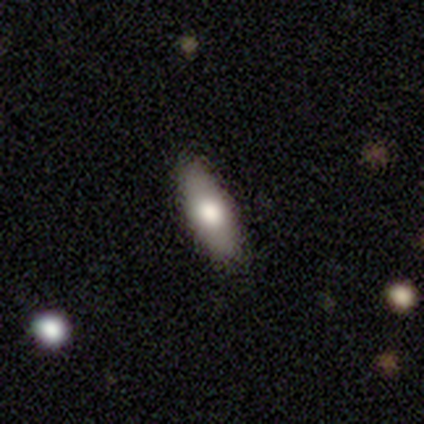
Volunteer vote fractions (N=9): Volunteers were most divided on "smooth or featured": smooth: 56%, featured or disk: 33%, star or artifact: 11%. More confident: merging — none (88%); how rounded — in between (80%).